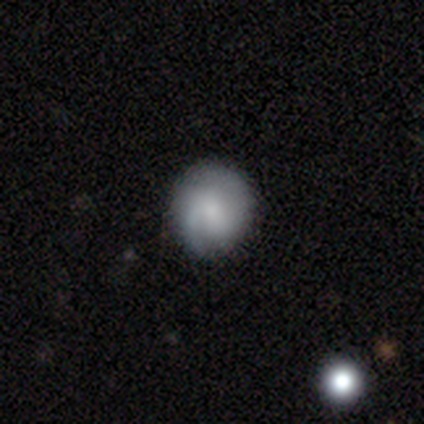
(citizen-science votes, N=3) A featured or disk galaxy (67%) with no bar (100%), 1 (100%) loose (100%) spiral arms (50%, tied with no) and a moderate central bulge (100%). Merging: none (67%).